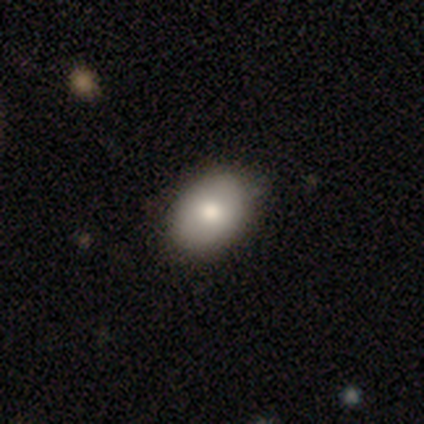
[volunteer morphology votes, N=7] Smooth or featured? 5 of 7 (71%) said smooth. How rounded? 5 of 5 (100%) said in between. Merging? 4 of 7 (57%) said none.